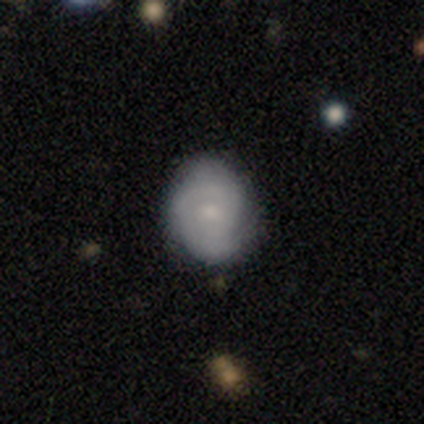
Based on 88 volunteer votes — This appears to be a featured or disk galaxy (60%) with no bar (83%), 2 (42%) tight (71%) spiral arms (87%) and a small central bulge (71%). Merging: none (83%).